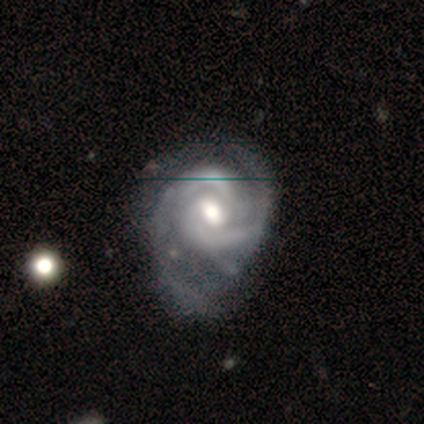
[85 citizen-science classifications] smooth_or_featured: featured or disk (p=0.93) [alt: smooth p=0.05]
disk_edge_on: no (p=0.97) [alt: yes p=0.03]
bar: weak (p=0.53) [alt: no p=0.40]
has_spiral_arms: yes (p=0.96) [alt: no p=0.04]
spiral_winding: tight (p=0.53) [alt: medium p=0.38]
spiral_arm_count: 2 (p=0.78) [alt: can't tell p=0.15]
bulge_size: moderate (p=0.75) [alt: large p=0.17]
merging: none (p=0.39) [alt: minor disturbance p=0.33]